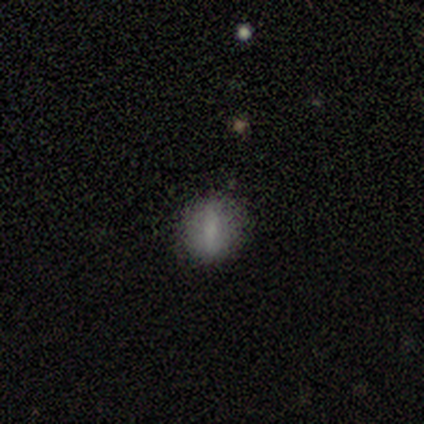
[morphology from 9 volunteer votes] Smooth or featured? smooth (44%, tied with featured or disk)
How rounded? in between (75%)
Merging? none (88%)